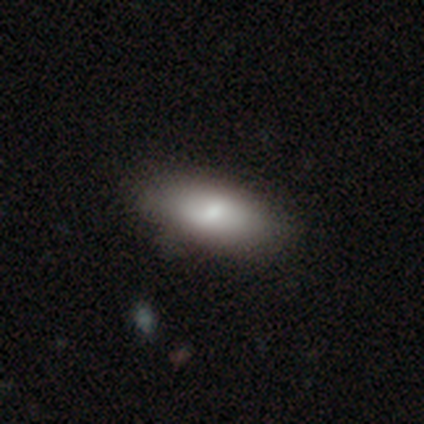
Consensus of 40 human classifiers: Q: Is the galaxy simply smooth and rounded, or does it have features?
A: smooth — 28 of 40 (70%).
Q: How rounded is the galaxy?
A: in between — 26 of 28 (93%).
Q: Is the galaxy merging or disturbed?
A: none — 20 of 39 (51%).